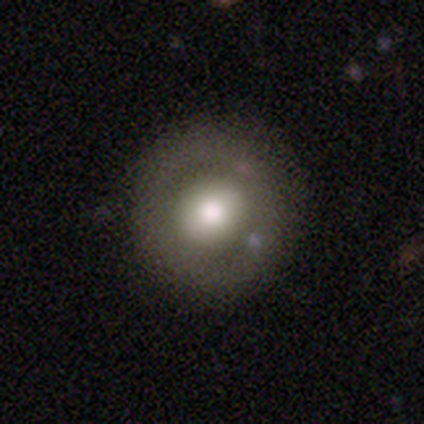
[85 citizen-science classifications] A featured or disk galaxy (48%) with no bar (46%), no spiral arms (94%) and a moderate central bulge (51%).

Vote fractions:
- Smooth or featured? featured or disk: 48% / smooth: 46% / star or artifact: 6%
- Edge-on disk? no: 85% / yes: 15%
- Bar? no: 46% / weak: 34% / strong: 20%
- Spiral arms? no: 94% / yes: 6%
- Bulge size? moderate: 51% / large: 37% / dominant: 9% / none: 3% / small: 0%
- Merging? none: 78% / minor disturbance: 15% / major disturbance: 5% / merger: 2%